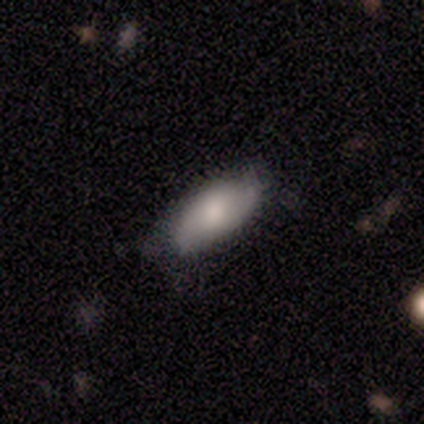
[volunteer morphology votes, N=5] smooth_or_featured: smooth (p=0.60) [alt: featured or disk p=0.20]
how_rounded: in between (p=1.00)
merging: none (p=1.00)